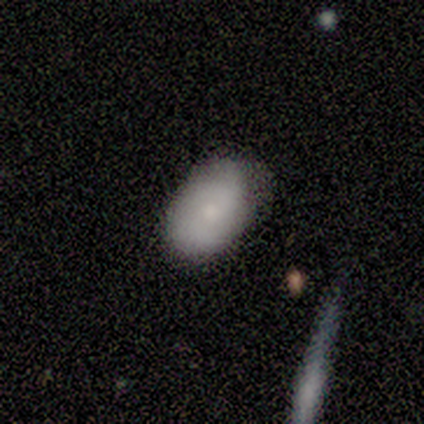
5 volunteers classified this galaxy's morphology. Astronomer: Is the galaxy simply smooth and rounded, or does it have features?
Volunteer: smooth — 100%.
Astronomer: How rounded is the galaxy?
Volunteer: in between — 100%.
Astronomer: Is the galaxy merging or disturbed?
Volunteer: minor disturbance — 60% (runner-up: none, 40%).